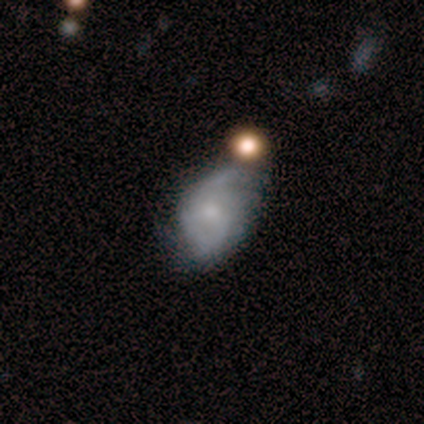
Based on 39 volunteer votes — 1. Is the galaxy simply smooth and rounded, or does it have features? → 67% featured or disk, 23% smooth, 10% star or artifact.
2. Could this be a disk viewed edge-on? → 100% no, 0% yes.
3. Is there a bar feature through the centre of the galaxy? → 73% no, 23% weak, 4% strong.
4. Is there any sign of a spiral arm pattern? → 96% yes, 4% no.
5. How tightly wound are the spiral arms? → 56% medium, 36% tight, 8% loose.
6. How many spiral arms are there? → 48% can't tell, 44% 2, 8% 1, 0% 3, 0% 4, 0% more than 4.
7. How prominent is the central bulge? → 54% small, 23% none, 19% moderate, 4% large, 0% dominant.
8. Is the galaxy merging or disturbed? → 51% none, 26% minor disturbance, 14% major disturbance, 9% merger.